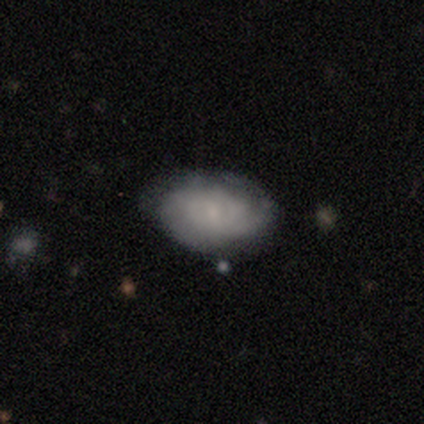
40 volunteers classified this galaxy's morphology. This is likely a featured or disk galaxy (60%). It is clearly not viewed edge-on (100%). Bar: possibly no (58%). Spiral arm pattern: likely yes (62%). Spiral arm count: possibly 2 (47%, tied with can't tell). Spiral winding: possibly medium (47%). Central bulge: possibly small (58%). Merging: possibly none (49%).